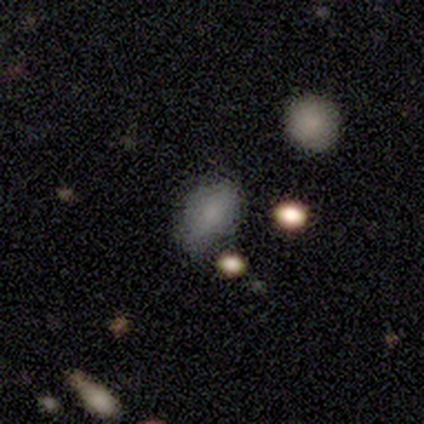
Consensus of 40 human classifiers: A smooth galaxy with no disk features (82%) that is in between round and cigar-shaped (91%).

Vote fractions:
- Smooth or featured? smooth: 82% / featured or disk: 12% / star or artifact: 5%
- How rounded? in between: 91% / round: 9% / cigar-shaped: 0%
- Merging? none: 79% / minor disturbance: 18% / merger: 3% / major disturbance: 0%